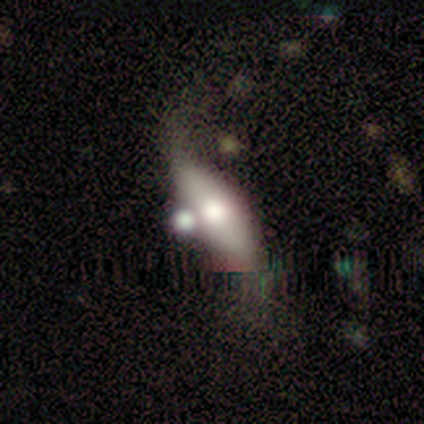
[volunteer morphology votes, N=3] Smooth or featured: featured or disk — 67% (star or artifact — 33%)
Edge-on disk: no — 100%
Bar: weak — 50% (tied with no — 50%)
Spiral arms: no — 100%
Bulge size: small — 100%
Merging: major disturbance — 100%